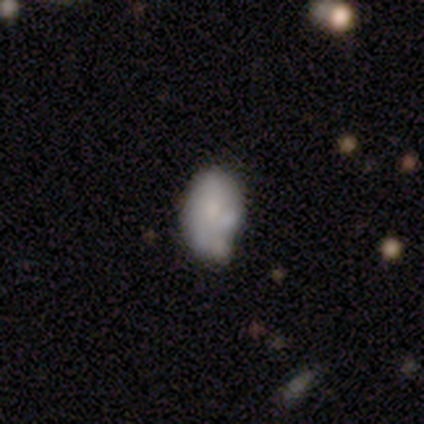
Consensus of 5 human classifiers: Smooth or featured? 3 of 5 (60%) said smooth. How rounded? 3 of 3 (100%) said in between. Merging? 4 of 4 (100%) said minor disturbance.